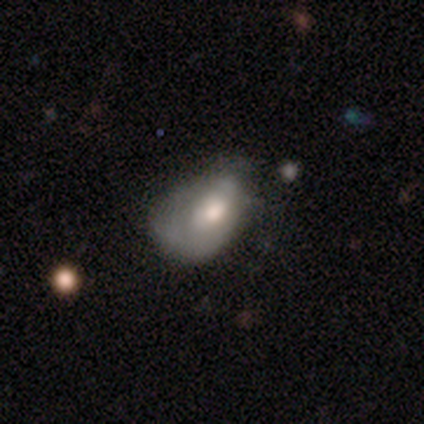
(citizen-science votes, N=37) A smooth galaxy with no disk features (59%) that is in between round and cigar-shaped (91%).

Vote fractions:
- Smooth or featured? smooth: 59% / featured or disk: 30% / star or artifact: 11%
- How rounded? in between: 91% / round: 9% / cigar-shaped: 0%
- Merging? minor disturbance: 45% / none: 30% / major disturbance: 24% / merger: 0%